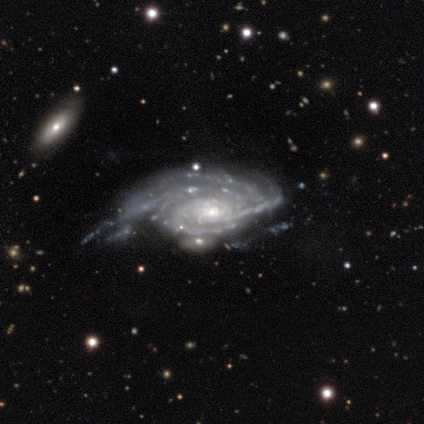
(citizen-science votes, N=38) Smooth or featured: featured or disk — 95% (star or artifact — 5%)
Edge-on disk: no — 100%
Bar: no — 75% (weak — 14%)
Spiral arms: yes — 97% (no — 3%)
Spiral winding: tight — 89% (medium — 9%)
Spiral arm count: more than 4 — 34% (4 — 29%)
Bulge size: small — 53% (moderate — 42%)
Merging: none — 42% (major disturbance — 31%)